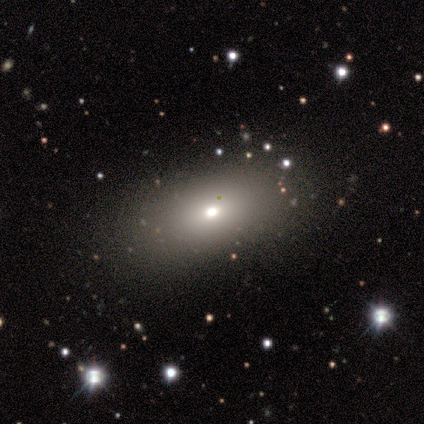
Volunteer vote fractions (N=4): smooth 75%, star or artifact 25%, featured or disk 0%. Down the decision tree: how rounded — in between (100%); merging — none (100%).